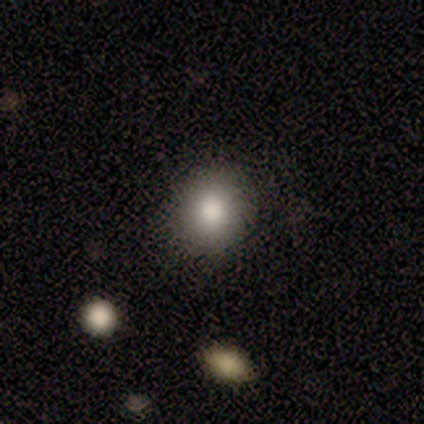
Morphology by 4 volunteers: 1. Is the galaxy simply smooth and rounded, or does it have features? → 50% smooth (tied), 50% star or artifact (tied), 0% featured or disk.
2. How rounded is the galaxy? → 100% round, 0% in between, 0% cigar-shaped.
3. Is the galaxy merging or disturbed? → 100% none, 0% minor disturbance, 0% major disturbance, 0% merger.